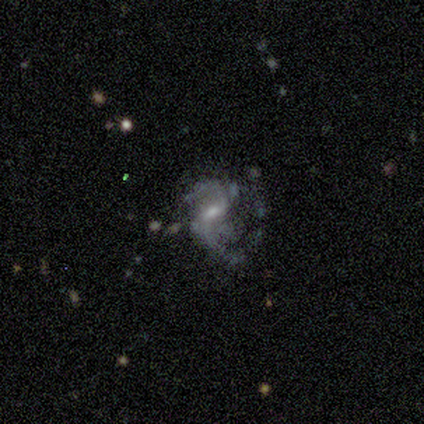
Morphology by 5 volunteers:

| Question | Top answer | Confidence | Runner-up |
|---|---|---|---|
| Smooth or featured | featured or disk | 80% | star or artifact (20%) |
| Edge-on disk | no | 100% | — |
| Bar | weak | 100% | — |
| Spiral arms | yes | 100% | — |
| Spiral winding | medium | 50% | tied: loose (50%) |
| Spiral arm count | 2 | 100% | — |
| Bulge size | moderate | 75% | small (25%) |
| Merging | none | 100% | — |